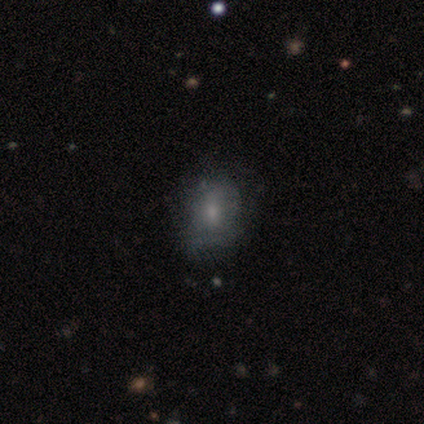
Overall: smooth (60%; featured or disk 40%). How rounded: in between (67%; round 33%). Merging: none (60%; minor disturbance 20%).